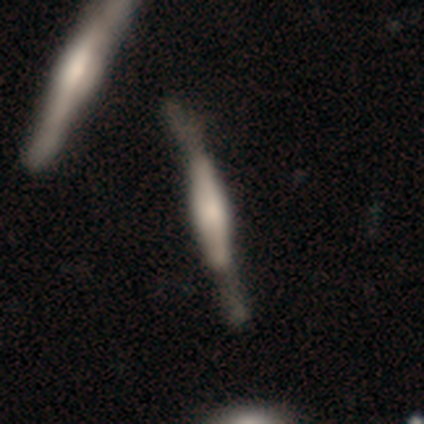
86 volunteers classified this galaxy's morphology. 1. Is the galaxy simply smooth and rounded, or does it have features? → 74% featured or disk, 21% smooth, 5% star or artifact.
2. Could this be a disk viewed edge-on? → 92% yes, 8% no.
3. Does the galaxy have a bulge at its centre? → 61% boxy, 32% rounded, 7% none.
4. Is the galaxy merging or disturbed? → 52% none, 29% minor disturbance, 13% major disturbance, 5% merger.